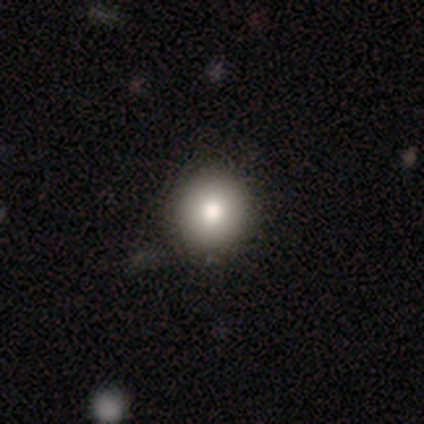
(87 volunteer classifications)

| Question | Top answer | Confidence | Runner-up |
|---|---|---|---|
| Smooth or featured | smooth | 75% | star or artifact (14%) |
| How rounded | round | 94% | in between (6%) |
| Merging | none | 89% | minor disturbance (5%) |